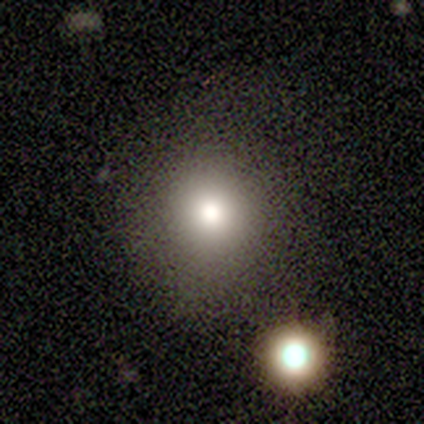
A smooth galaxy with no disk features (80%) that is round (100%).

Vote fractions:
- Smooth or featured? smooth: 80% / star or artifact: 20% / featured or disk: 0%
- How rounded? round: 100% / in between: 0% / cigar-shaped: 0%
- Merging? none: 75% / minor disturbance: 25% / major disturbance: 0% / merger: 0%